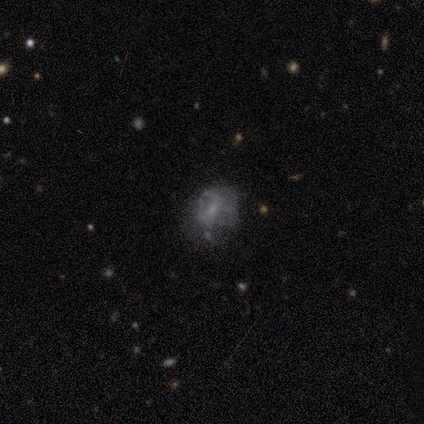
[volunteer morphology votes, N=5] featured or disk 80%, smooth 20%, star or artifact 0%. Down the decision tree: edge-on disk — no (100%); bar — no (75%); spiral arms — no (75%); bulge size — small (50%, tied with none); merging — none (60%).